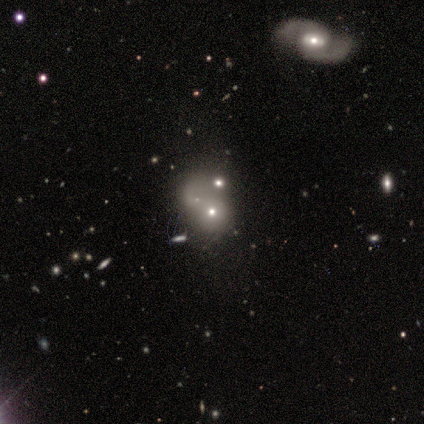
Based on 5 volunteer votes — Q: Smooth or featured?
A: smooth (60%); runner-up: featured or disk (40%)
Q: How rounded?
A: round (100%)
Q: Merging?
A: merger (80%); runner-up: none (20%)